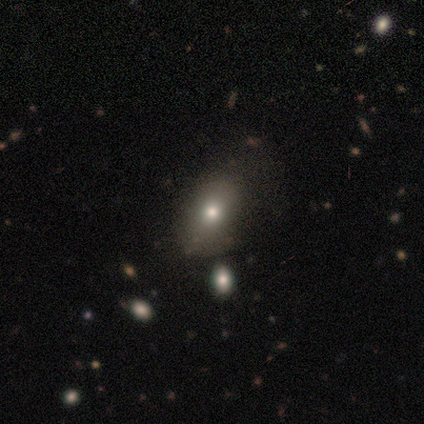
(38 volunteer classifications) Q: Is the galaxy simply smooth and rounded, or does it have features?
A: smooth — 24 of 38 (63%).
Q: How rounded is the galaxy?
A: in between — 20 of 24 (83%).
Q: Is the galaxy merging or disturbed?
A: none — 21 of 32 (66%).